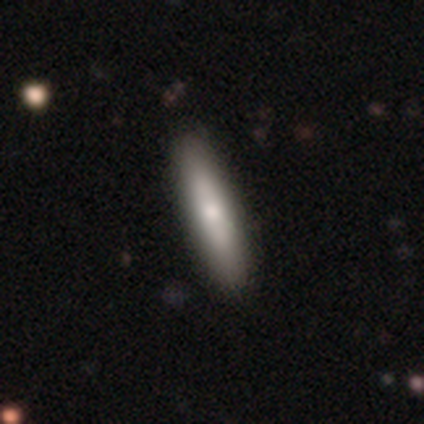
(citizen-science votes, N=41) smooth 68%, featured or disk 29%, star or artifact 2%. Down the decision tree: how rounded — cigar-shaped (86%); merging — none (52%).